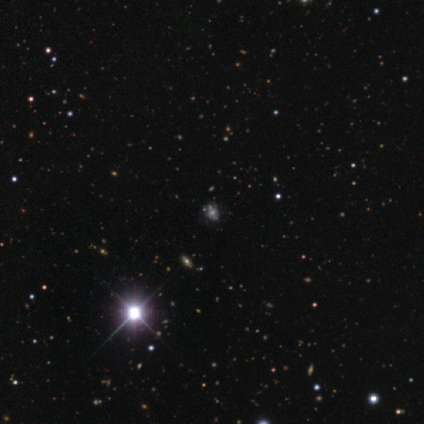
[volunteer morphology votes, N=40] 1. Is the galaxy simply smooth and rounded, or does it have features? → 42% star or artifact, 35% featured or disk, 22% smooth.